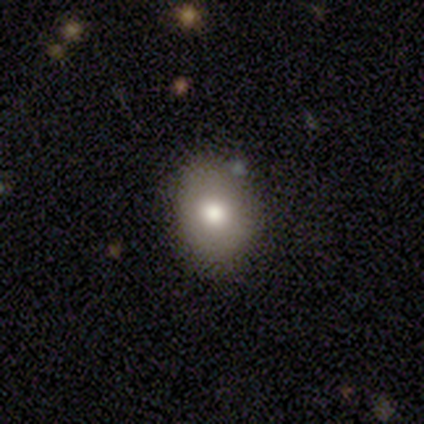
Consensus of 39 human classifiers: Smooth or featured? smooth (67%)
How rounded? in between (65%)
Merging? none (85%)